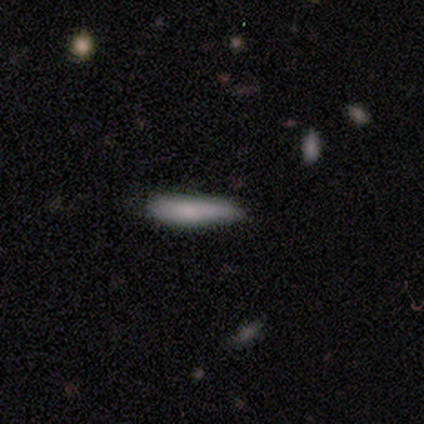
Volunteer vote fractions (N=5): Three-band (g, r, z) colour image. It shows a smooth galaxy with no disk features (80%) that is cigar-shaped (100%). Merging: minor disturbance (60%).